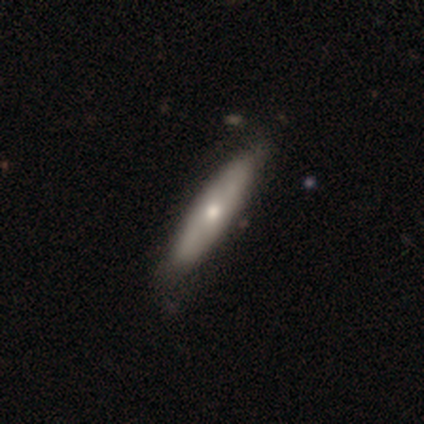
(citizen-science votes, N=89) smooth_or_featured: smooth (p=0.55) [alt: featured or disk p=0.39]
how_rounded: cigar-shaped (p=0.88) [alt: in between p=0.12]
merging: none (p=0.81) [alt: minor disturbance p=0.15]